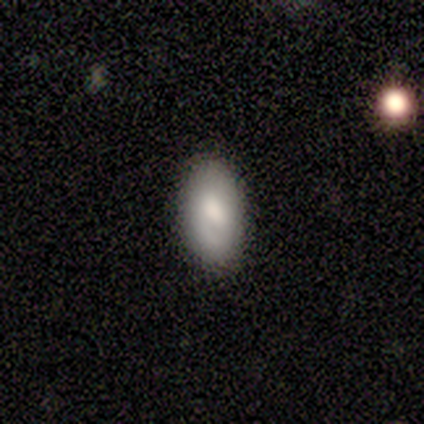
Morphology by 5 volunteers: A smooth galaxy with no disk features (100%) that is in between round and cigar-shaped (100%). Merging: none (80%).